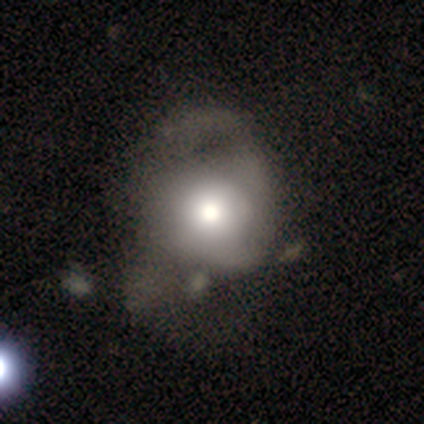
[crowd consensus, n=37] This appears to be a smooth galaxy with no disk features (46%, tied with featured or disk) that is round (76%). Merging: major disturbance (50%).